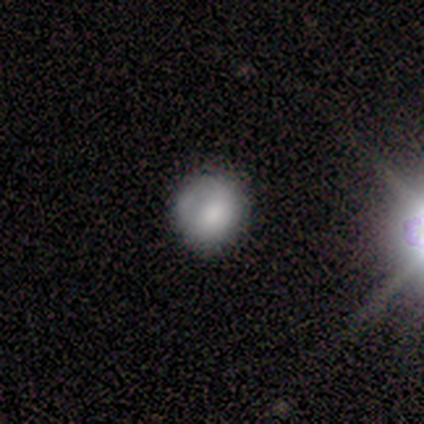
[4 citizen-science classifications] A smooth galaxy with no disk features (100%) that is round (100%).

Vote fractions:
- Smooth or featured? smooth: 100% / featured or disk: 0% / star or artifact: 0%
- How rounded? round: 100% / in between: 0% / cigar-shaped: 0%
- Merging? none: 50% / minor disturbance: 25% / major disturbance: 25% / merger: 0%